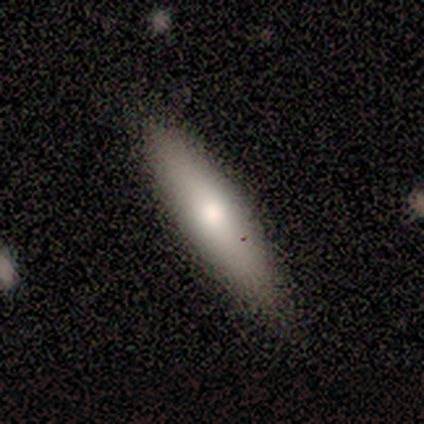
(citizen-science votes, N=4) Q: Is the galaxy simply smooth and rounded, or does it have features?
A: smooth — 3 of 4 (75%).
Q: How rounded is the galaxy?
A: cigar-shaped — 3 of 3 (100%).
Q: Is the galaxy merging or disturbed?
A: none — 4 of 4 (100%).